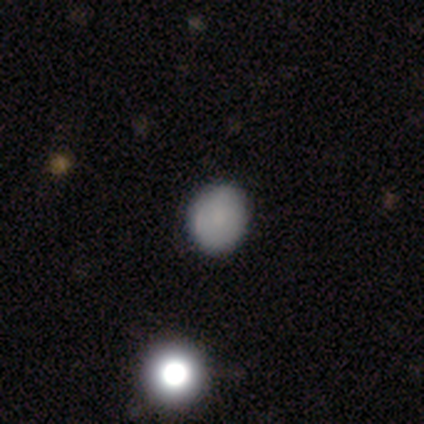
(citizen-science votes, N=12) Q: Smooth or featured?
A: smooth (83%); runner-up: featured or disk (8%)
Q: How rounded?
A: round (60%); runner-up: in between (40%)
Q: Merging?
A: none (91%); runner-up: minor disturbance (9%)